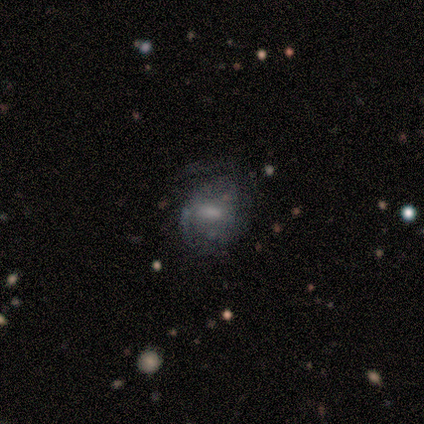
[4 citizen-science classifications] Smooth or featured: smooth — 50% (featured or disk — 25%)
How rounded: round — 50% (tied with in between — 50%)
Merging: none — 100%